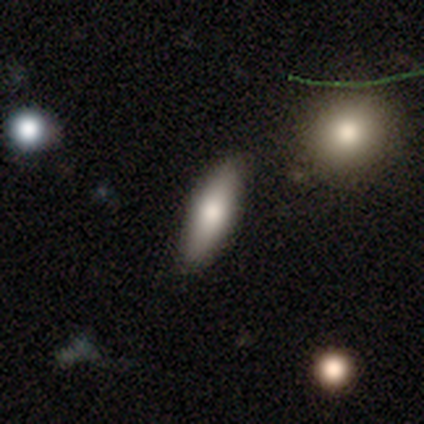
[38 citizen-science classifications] Volunteers were most divided on "smooth or featured": smooth: 71%, featured or disk: 26%, star or artifact: 3%. More confident: merging — none (81%); how rounded — cigar-shaped (74%).